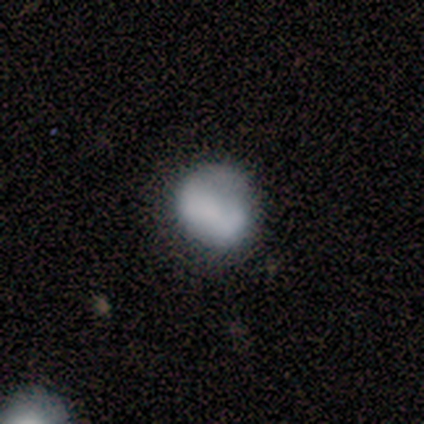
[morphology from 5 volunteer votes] smooth 60%, featured or disk 20%, star or artifact 20%. Down the decision tree: how rounded — round (67%); merging — minor disturbance (75%).